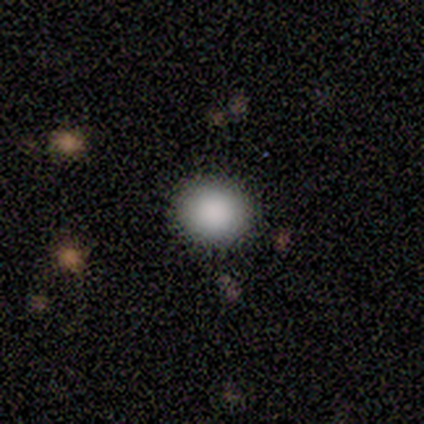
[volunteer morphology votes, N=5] Smooth or featured?
  - smooth: 100% *
  - featured or disk: 0%
  - star or artifact: 0%
How rounded?
  - round: 80% *
  - in between: 20%
  - cigar-shaped: 0%
Merging?
  - none: 100% *
  - minor disturbance: 0%
  - major disturbance: 0%
  - merger: 0%